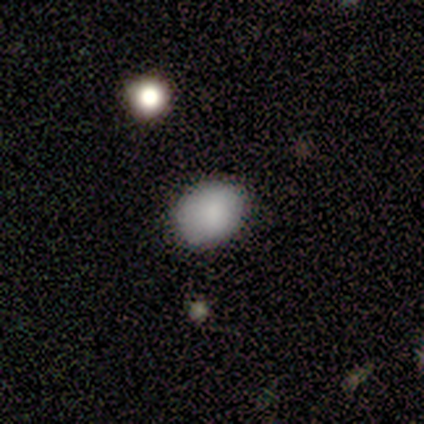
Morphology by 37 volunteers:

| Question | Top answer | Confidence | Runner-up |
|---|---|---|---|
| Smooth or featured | smooth | 73% | star or artifact (22%) |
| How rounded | in between | 56% | round (44%) |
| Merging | none | 69% | minor disturbance (24%) |